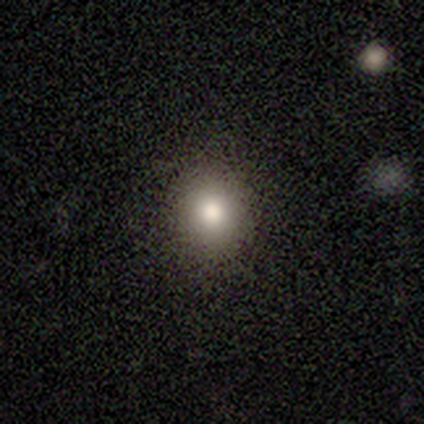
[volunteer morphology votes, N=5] Q: Smooth or featured?
A: smooth (60%); runner-up: star or artifact (40%)
Q: How rounded?
A: round (100%)
Q: Merging?
A: none (100%)